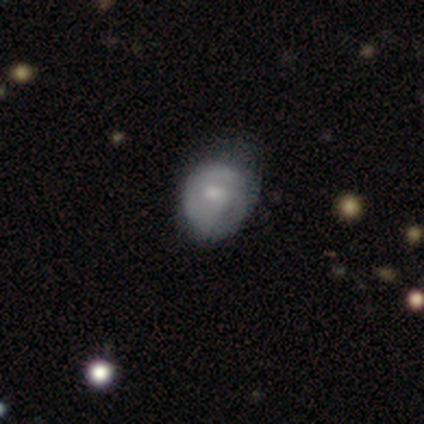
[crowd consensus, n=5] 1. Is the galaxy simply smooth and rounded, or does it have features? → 60% smooth, 20% featured or disk, 20% star or artifact.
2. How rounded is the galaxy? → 67% round, 33% in between, 0% cigar-shaped.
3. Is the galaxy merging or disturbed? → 75% minor disturbance, 25% none, 0% major disturbance, 0% merger.